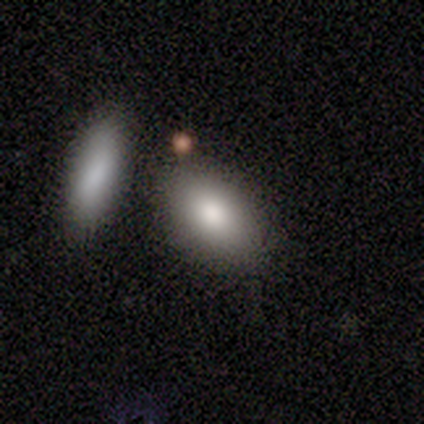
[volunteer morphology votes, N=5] Q: Smooth or featured?
A: smooth (80%); runner-up: star or artifact (20%)
Q: How rounded?
A: in between (100%)
Q: Merging?
A: none (75%); runner-up: merger (25%)